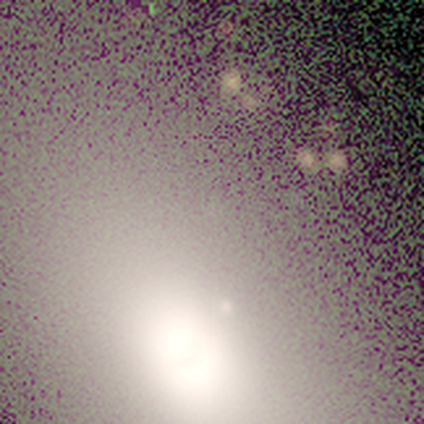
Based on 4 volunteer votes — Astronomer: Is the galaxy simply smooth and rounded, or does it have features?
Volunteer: smooth — 50%, tied with star or artifact at 50%.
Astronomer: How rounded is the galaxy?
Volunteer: round — 50%, tied with in between at 50%.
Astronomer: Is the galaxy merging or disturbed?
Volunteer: none — 100%.